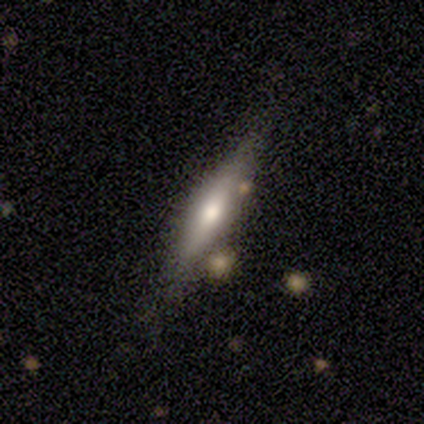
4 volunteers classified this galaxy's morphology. Q: Smooth or featured?
A: featured or disk (50%); runner-up: smooth (25%)
Q: Edge-on disk?
A: yes (100%)
Q: Edge-on bulge?
A: rounded (100%)
Q: Merging?
A: none (67%); runner-up: minor disturbance (33%)